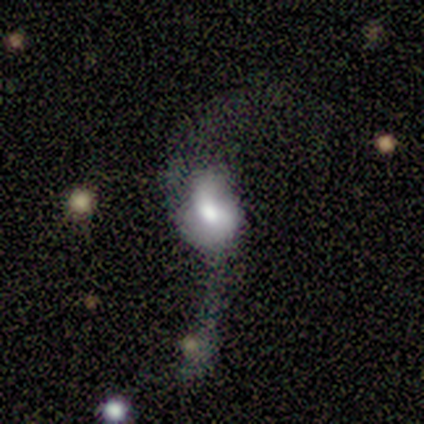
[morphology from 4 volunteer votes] This appears to be a featured or disk galaxy (75%) with no bar (67%), 2 (67%) loose (100%) spiral arms (100%) and a moderate central bulge (100%). Merging: major disturbance (75%).